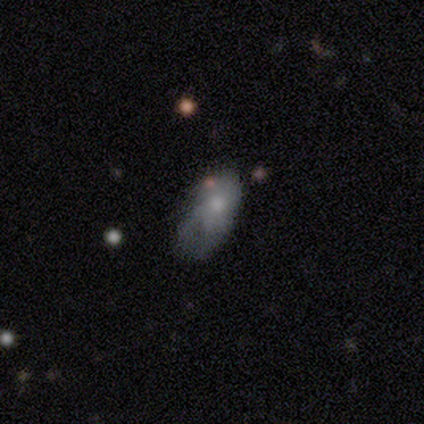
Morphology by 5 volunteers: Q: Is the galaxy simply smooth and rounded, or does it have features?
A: featured or disk — 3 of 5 (60%).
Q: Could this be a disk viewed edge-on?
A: no — 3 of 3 (100%).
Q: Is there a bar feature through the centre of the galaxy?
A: no — 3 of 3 (100%).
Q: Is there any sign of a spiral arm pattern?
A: no — 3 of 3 (100%).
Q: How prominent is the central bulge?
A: moderate — 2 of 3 (67%).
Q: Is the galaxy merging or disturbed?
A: major disturbance — 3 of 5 (60%).